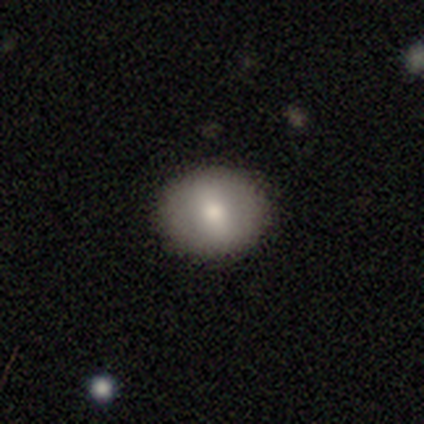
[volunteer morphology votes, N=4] smooth-or-featured: smooth: 50% | featured or disk: 25% | star or artifact: 25%
  how-rounded: round: 100% | in between: 0% | cigar-shaped: 0%
  merging: none: 100% | minor disturbance: 0% | major disturbance: 0% | merger: 0%